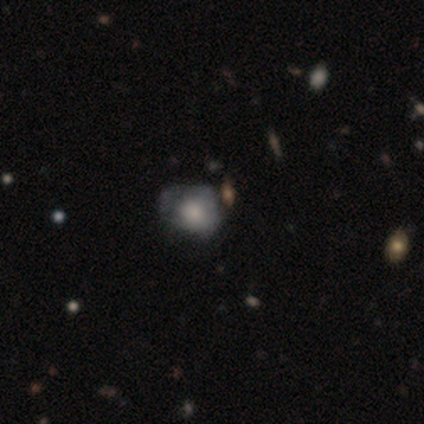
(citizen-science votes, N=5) smooth_or_featured: smooth (p=0.80) [alt: featured or disk p=0.20]
how_rounded: round (p=0.50) [tied with: in between p=0.50]
merging: minor disturbance (p=0.60) [alt: none p=0.40]